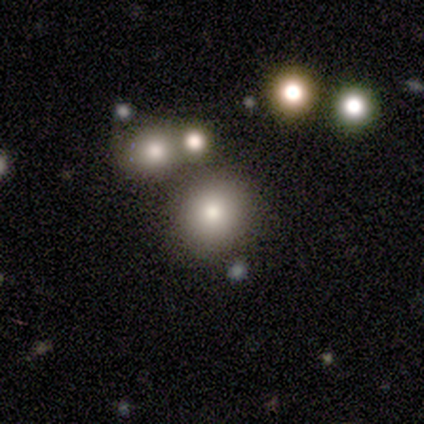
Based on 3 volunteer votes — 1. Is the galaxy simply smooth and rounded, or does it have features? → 67% smooth, 33% star or artifact, 0% featured or disk.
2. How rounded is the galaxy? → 100% round, 0% in between, 0% cigar-shaped.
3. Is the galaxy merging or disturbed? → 50% none (tied), 50% minor disturbance (tied), 0% major disturbance, 0% merger.